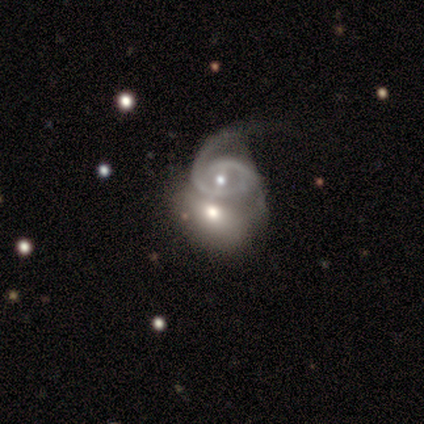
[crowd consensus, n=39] Smooth or featured?
  - featured or disk: 56% *
  - smooth: 38%
  - star or artifact: 5%
Edge-on disk?
  - no: 95% *
  - yes: 5%
Bar?
  - no: 52% *
  - weak: 38%
  - strong: 10%
Spiral arms?
  - yes: 81% *
  - no: 19%
Spiral winding?
  - tight: 47% *
  - medium: 41%
  - loose: 12%
Spiral arm count?
  - 1: 35% * (tied)
  - 2: 35% * (tied)
  - can't tell: 24%
  - 3: 6%
  - 4: 0%
  - more than 4: 0%
Bulge size?
  - moderate: 57% *
  - small: 43%
  - dominant: 0%
  - large: 0%
  - none: 0%
Merging?
  - merger: 70% *
  - major disturbance: 19%
  - minor disturbance: 8%
  - none: 3%